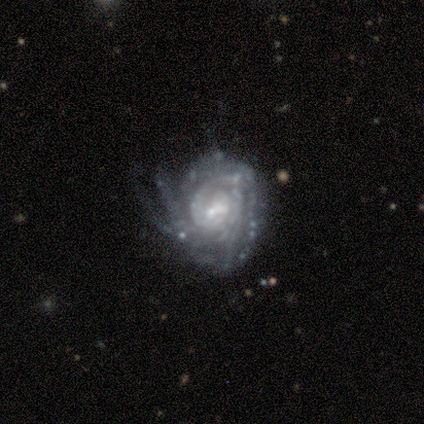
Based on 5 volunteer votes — Smooth or featured: featured or disk — 80% (star or artifact — 20%)
Edge-on disk: no — 100%
Bar: no — 75% (weak — 25%)
Spiral arms: yes — 100%
Spiral winding: tight — 75% (medium — 25%)
Spiral arm count: can't tell — 50% (3 — 25%)
Bulge size: moderate — 100%
Merging: minor disturbance — 50% (none — 25%)